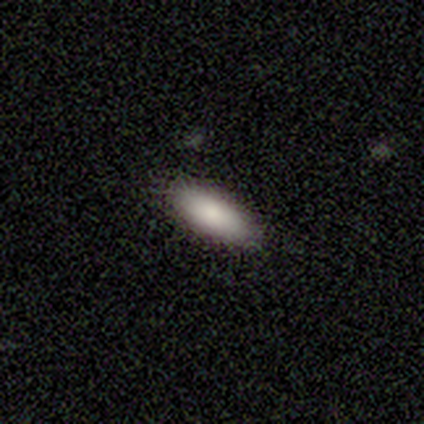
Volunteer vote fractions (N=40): Overall: smooth (82%). How rounded: in between (67%; cigar-shaped 30%). Merging: none (84%).